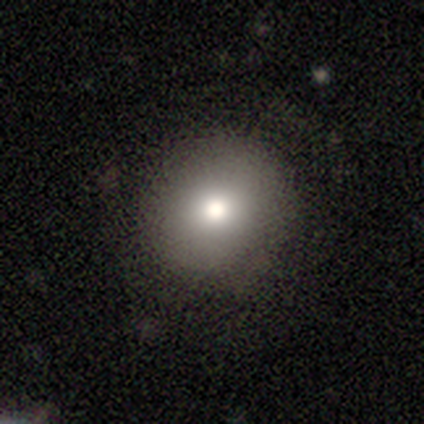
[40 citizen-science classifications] This appears to be a smooth galaxy with no disk features (88%) that is round (86%). Merging: none (81%).